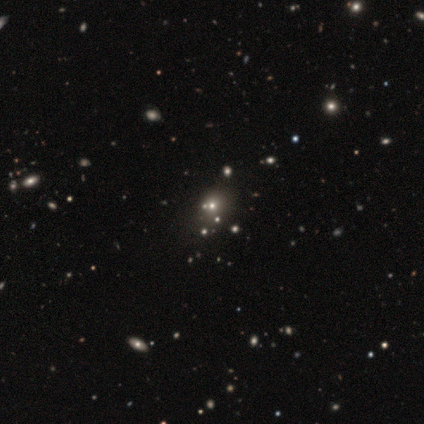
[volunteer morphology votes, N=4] smooth-or-featured: smooth: 50% | featured or disk: 25% | star or artifact: 25%
  how-rounded: round: 50% (tied) | in between: 50% (tied) | cigar-shaped: 0%
  merging: none: 100% | minor disturbance: 0% | major disturbance: 0% | merger: 0%